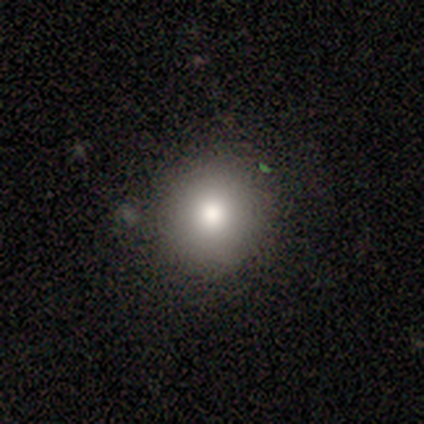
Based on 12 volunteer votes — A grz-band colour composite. It shows a smooth galaxy with no disk features (83%) that is round (100%). Merging: none (91%).